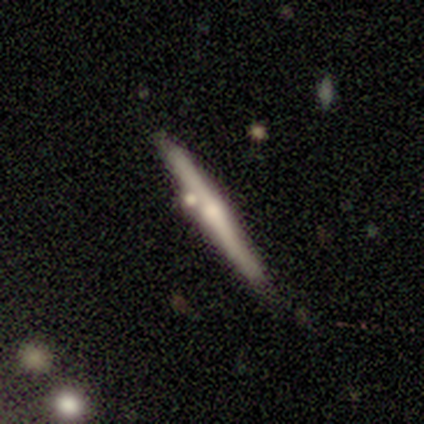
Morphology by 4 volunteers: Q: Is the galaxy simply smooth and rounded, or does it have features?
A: smooth — 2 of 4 (50%, tied with featured or disk).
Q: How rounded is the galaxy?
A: cigar-shaped — 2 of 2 (100%).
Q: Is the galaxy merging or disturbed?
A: none — 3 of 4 (75%).